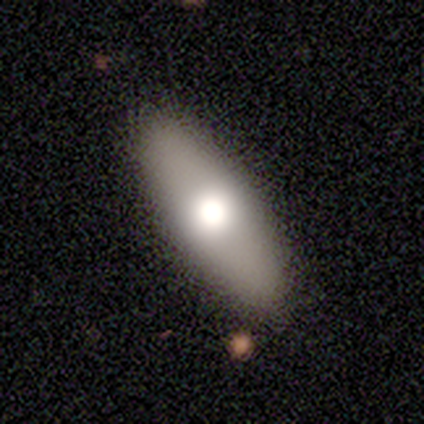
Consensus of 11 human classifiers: This is likely a smooth galaxy (73%). How rounded: likely in between (75%). Merging: clearly none (91%).